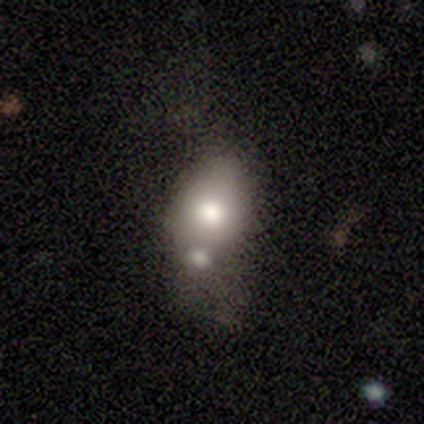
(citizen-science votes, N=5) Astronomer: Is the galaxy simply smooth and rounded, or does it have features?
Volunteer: smooth — 60% (runner-up: star or artifact, 40%).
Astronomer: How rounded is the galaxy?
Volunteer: in between — 100%.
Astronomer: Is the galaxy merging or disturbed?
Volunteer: merger — 100%.